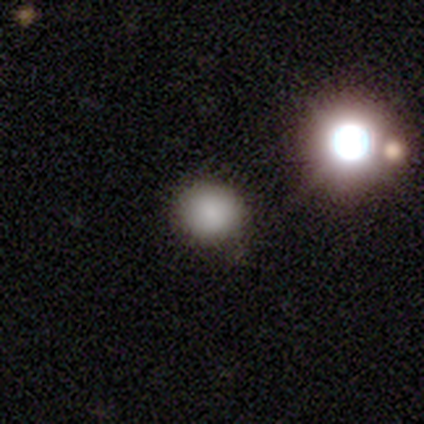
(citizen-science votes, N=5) A smooth galaxy with no disk features (60%) that is round (100%). Merging: none (60%).